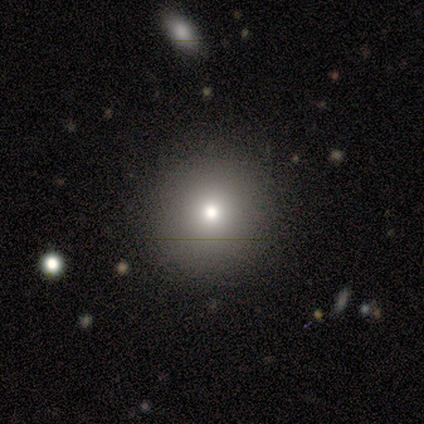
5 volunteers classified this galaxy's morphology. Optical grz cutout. It shows a smooth galaxy with no disk features (100%) that is round (100%). Merging: none (100%).